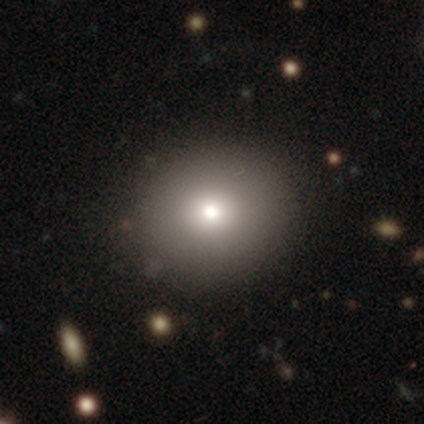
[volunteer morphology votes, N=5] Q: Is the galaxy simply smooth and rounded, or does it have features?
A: smooth — 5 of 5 (100%).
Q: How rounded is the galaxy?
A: round — 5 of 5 (100%).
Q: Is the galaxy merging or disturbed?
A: none — 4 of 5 (80%).